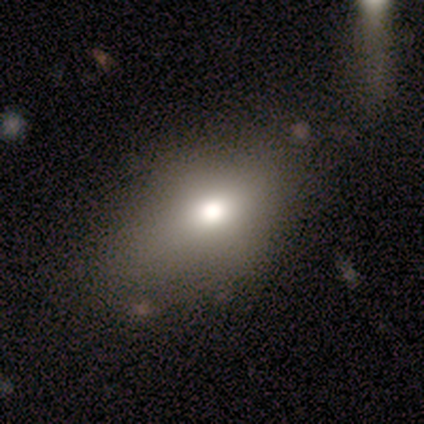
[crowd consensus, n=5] smooth 80%, featured or disk 20%, star or artifact 0%. Down the decision tree: how rounded — in between (100%); merging — none (60%).